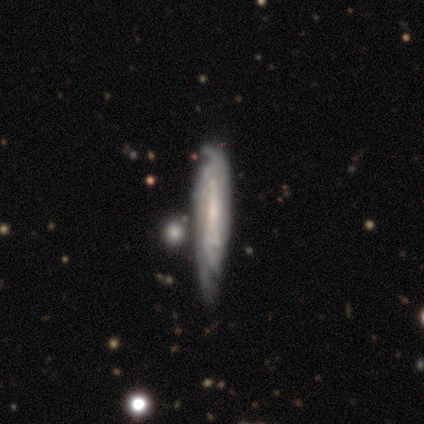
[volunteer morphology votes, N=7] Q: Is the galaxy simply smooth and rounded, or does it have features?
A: featured or disk — 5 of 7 (71%).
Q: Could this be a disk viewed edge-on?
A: no — 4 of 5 (80%).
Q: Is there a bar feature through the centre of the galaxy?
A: weak — 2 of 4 (50%, tied with no).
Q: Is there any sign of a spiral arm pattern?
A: yes — 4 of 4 (100%).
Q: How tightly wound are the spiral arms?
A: tight — 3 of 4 (75%).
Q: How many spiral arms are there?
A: can't tell — 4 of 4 (100%).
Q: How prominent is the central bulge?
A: small — 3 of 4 (75%).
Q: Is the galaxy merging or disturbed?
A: none — 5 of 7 (71%).